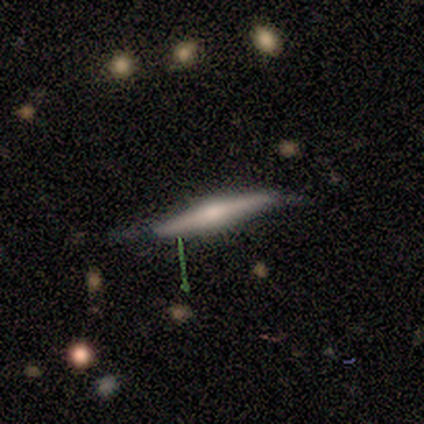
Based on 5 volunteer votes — Smooth or featured: featured or disk — 60% (smooth — 40%)
Edge-on disk: yes — 100%
Edge-on bulge: rounded — 100%
Merging: minor disturbance — 60% (none — 20%)